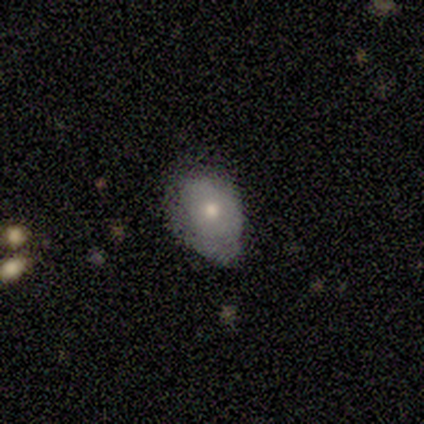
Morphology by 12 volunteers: A smooth galaxy with no disk features (67%) that is in between round and cigar-shaped (100%). Merging: minor disturbance (67%).